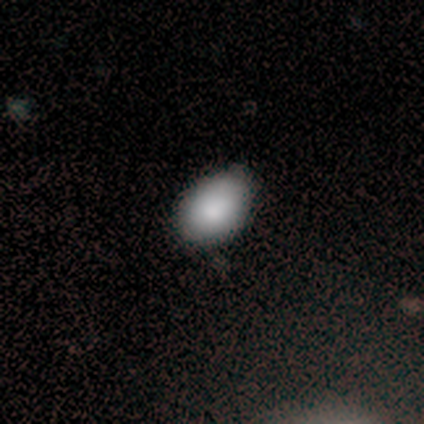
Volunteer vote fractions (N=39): Smooth or featured? 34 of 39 (87%) said smooth. How rounded? 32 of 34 (94%) said in between. Merging? 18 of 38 (47%) said none.